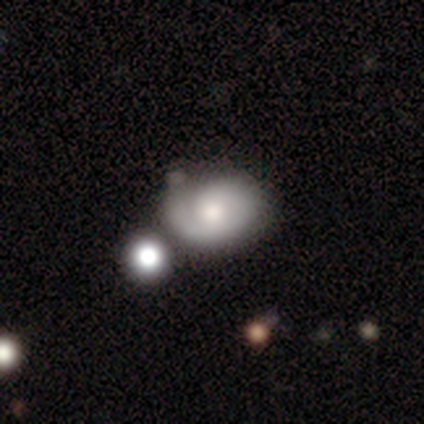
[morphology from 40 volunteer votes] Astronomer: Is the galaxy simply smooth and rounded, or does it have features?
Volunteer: featured or disk — 48% (runner-up: smooth, 38%).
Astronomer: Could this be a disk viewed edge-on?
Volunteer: no — 100%.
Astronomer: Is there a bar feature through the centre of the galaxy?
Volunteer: no — 84%.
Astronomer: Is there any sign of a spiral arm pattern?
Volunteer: yes — 74%.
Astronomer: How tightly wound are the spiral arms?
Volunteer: tight — 71%.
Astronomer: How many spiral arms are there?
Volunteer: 1 — 71%.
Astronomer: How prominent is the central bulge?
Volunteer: moderate — 47%.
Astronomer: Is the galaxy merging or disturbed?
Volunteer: none — 59%.